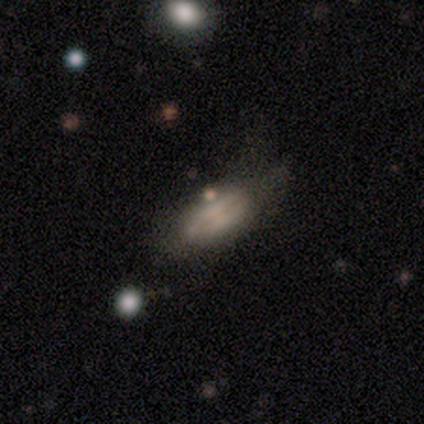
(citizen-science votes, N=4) smooth_or_featured: smooth (p=0.75) [alt: featured or disk p=0.25]
how_rounded: cigar-shaped (p=0.67) [alt: in between p=0.33]
merging: major disturbance (p=0.75) [alt: minor disturbance p=0.25]